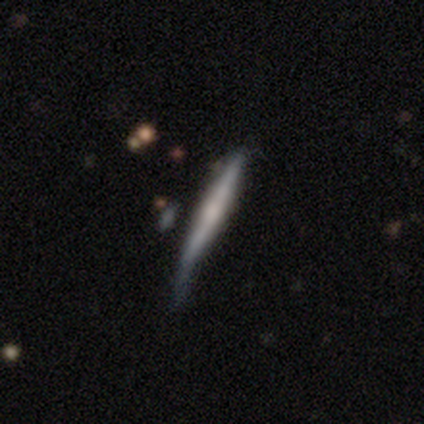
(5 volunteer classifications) Smooth or featured?
  - featured or disk: 60% *
  - smooth: 40%
  - star or artifact: 0%
Edge-on disk?
  - yes: 100% *
  - no: 0%
Edge-on bulge?
  - rounded: 67% *
  - none: 33%
  - boxy: 0%
Merging?
  - none: 80% *
  - minor disturbance: 20%
  - major disturbance: 0%
  - merger: 0%